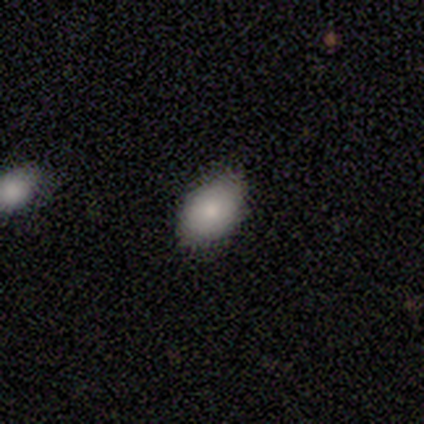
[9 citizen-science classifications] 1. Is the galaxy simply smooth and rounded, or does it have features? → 100% smooth, 0% featured or disk, 0% star or artifact.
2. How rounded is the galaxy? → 100% in between, 0% round, 0% cigar-shaped.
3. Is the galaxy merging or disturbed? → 89% none, 11% minor disturbance, 0% major disturbance, 0% merger.